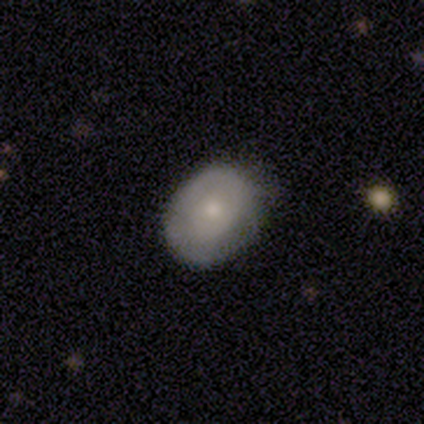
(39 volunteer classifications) Volunteers were most divided on "smooth or featured": smooth: 56%, featured or disk: 36%, star or artifact: 8%. More confident: how rounded — in between (64%); merging — none (61%).